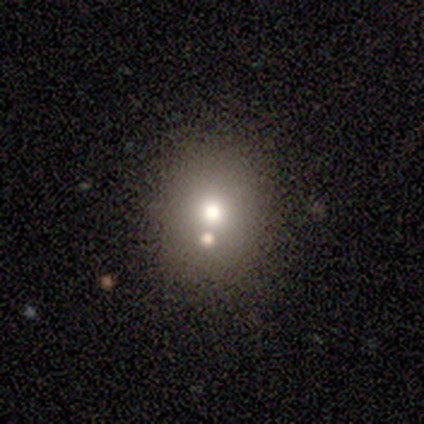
Smooth or featured? 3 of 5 (60%) said smooth. How rounded? 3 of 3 (100%) said round. Merging? 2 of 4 (50%, tied with merger) said none.